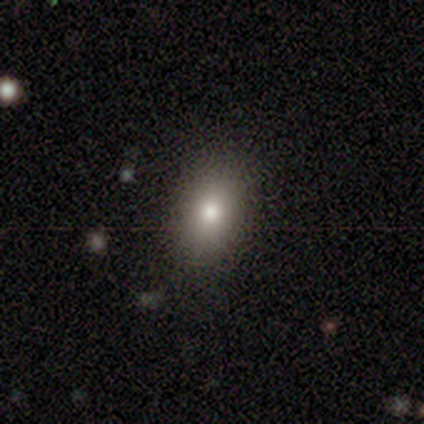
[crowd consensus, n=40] smooth 85%, star or artifact 10%, featured or disk 5%. Down the decision tree: how rounded — in between (76%); merging — none (92%).